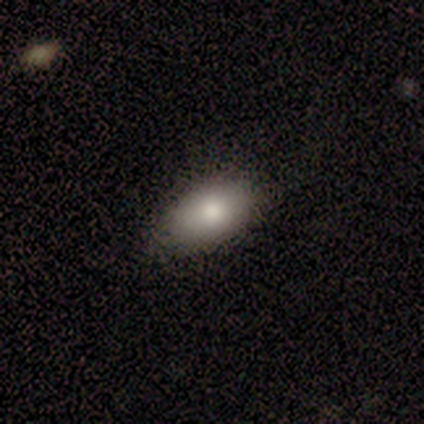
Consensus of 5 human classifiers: Smooth or featured? smooth (80%)
How rounded? in between (100%)
Merging? none (60%)